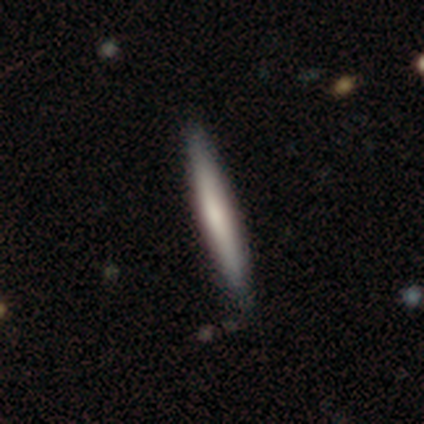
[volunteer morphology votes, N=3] Smooth or featured? smooth (33%, tied with featured or disk and star or artifact)
How rounded? cigar-shaped (100%)
Merging? none (100%)